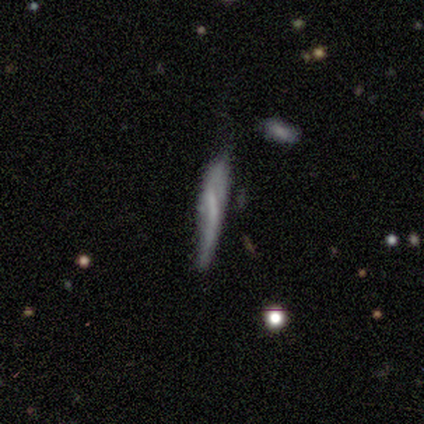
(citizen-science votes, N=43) Morphology: type=featured or disk (51%); edge-on=yes (59%); edge-on bulge=none (69%); merging=none (46%).